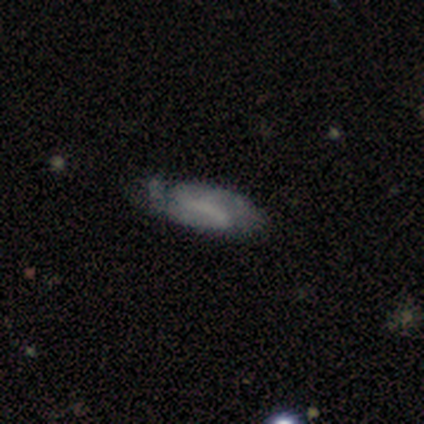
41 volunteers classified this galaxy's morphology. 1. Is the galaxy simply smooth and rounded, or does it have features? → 63% featured or disk, 32% smooth, 5% star or artifact.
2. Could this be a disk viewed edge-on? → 100% no, 0% yes.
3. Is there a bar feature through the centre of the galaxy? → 42% strong, 38% weak, 19% no.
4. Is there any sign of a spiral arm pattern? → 65% yes, 35% no.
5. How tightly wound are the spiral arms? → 47% tight, 41% medium, 12% loose.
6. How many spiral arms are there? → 71% 2, 18% 3, 6% 1, 6% can't tell, 0% 4, 0% more than 4.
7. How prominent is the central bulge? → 69% none, 15% small, 12% moderate, 4% large, 0% dominant.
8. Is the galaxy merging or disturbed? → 54% none, 41% minor disturbance, 3% major disturbance, 3% merger.